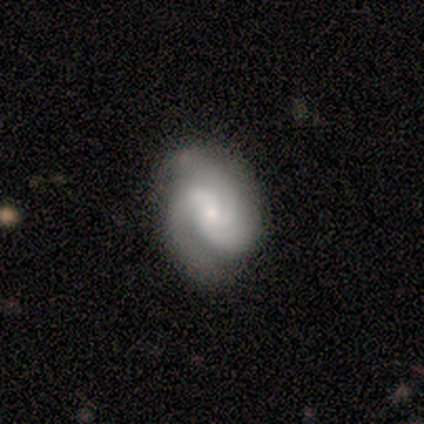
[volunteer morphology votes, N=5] A featured or disk galaxy (100%) with no bar (80%), 2 (50%, tied with 3) tight (50%, tied with medium) spiral arms (80%) and a small central bulge (60%). Merging: none (80%).